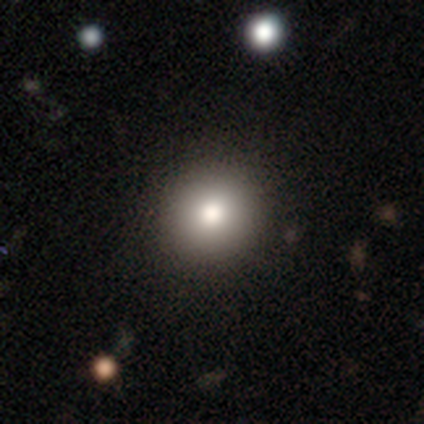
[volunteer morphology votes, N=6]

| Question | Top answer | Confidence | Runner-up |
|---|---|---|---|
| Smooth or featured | smooth | 83% | star or artifact (17%) |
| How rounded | round | 100% | — |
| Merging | none | 100% | — |